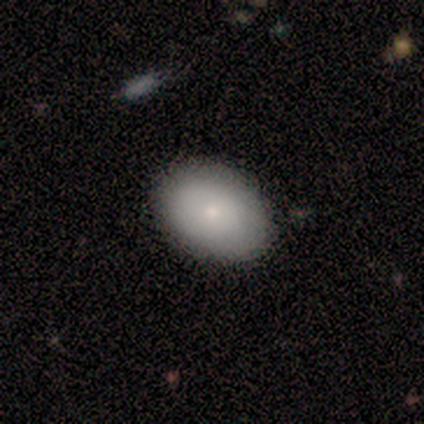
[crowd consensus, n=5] Smooth or featured? smooth (60%)
How rounded? in between (67%)
Merging? none (100%)